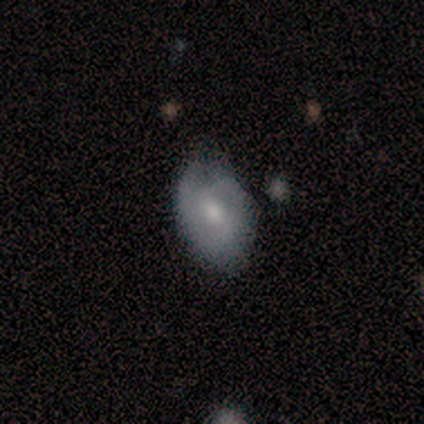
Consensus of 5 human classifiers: Morphology: type=smooth (60%); roundness=in between (100%); merging=none (80%).